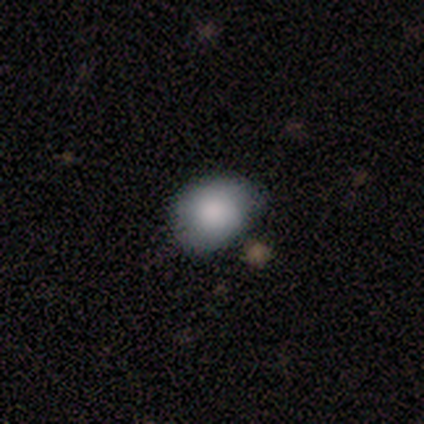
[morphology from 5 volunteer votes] smooth 100%, featured or disk 0%, star or artifact 0%. Down the decision tree: how rounded — round (80%); merging — none (60%).